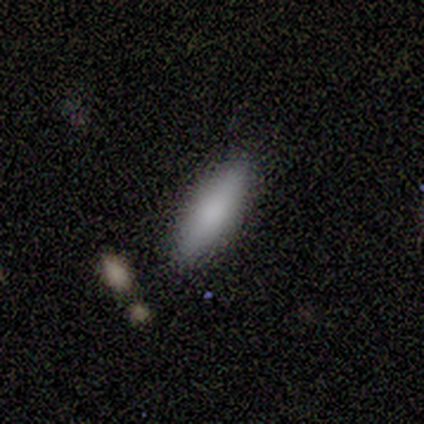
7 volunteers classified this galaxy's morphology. This appears to be a smooth galaxy with no disk features (71%) that is cigar-shaped (80%). Merging: none (57%).